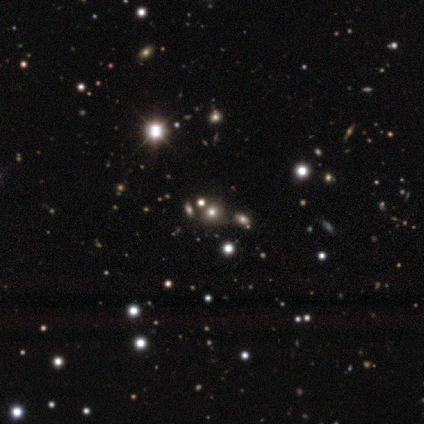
Overall: star or artifact (51%; smooth 38%).